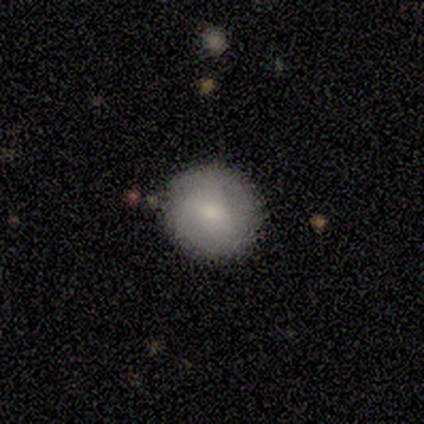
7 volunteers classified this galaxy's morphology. Volunteers were most divided on "merging": none: 60%, minor disturbance: 40%, major disturbance: 0%, merger: 0%. More confident: how rounded — round (100%); smooth or featured — smooth (71%).